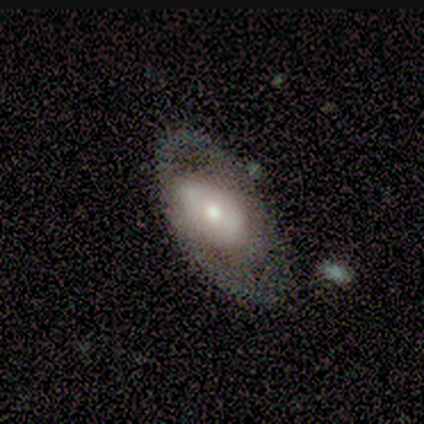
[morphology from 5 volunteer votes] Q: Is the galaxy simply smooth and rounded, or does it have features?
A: featured or disk — 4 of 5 (80%).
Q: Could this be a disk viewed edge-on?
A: no — 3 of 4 (75%).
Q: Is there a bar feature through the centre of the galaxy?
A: no — 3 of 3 (100%).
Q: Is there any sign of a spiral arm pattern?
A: no — 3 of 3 (100%).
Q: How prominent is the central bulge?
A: moderate — 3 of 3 (100%).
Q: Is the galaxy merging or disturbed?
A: minor disturbance — 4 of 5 (80%).